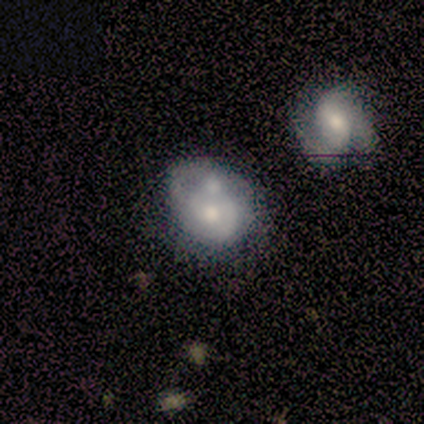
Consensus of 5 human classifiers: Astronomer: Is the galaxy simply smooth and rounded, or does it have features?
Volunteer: smooth — 40%, tied with featured or disk at 40%.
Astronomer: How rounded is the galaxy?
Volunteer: round — 100%.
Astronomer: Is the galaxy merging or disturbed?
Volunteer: minor disturbance — 50%.